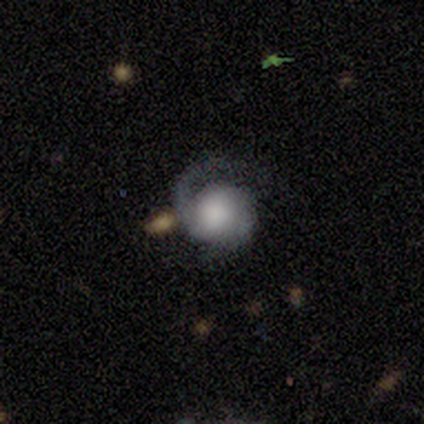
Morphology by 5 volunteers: A featured or disk galaxy (80%) with no bar (100%), 2 (75%) tight (75%) spiral arms (100%) and a large central bulge (50%). Merging: none (60%).